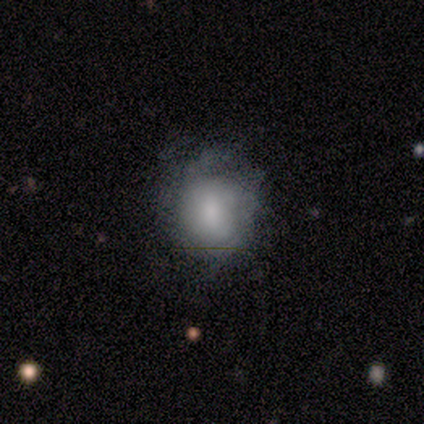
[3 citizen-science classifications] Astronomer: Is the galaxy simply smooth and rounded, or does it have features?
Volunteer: smooth — 100%.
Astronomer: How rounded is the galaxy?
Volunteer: round — 67%.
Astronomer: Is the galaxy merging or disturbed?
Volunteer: none — 33%, tied with minor disturbance and major disturbance at 33%.